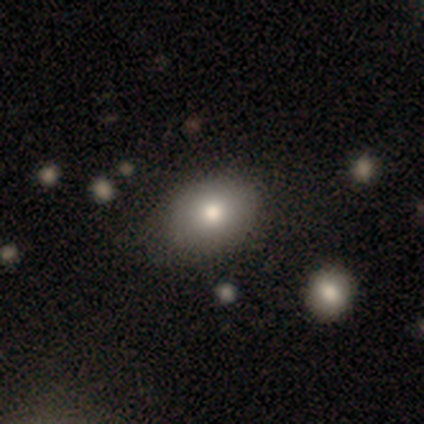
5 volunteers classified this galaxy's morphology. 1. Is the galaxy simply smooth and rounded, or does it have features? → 60% smooth, 40% featured or disk, 0% star or artifact.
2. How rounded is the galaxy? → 67% round, 33% in between, 0% cigar-shaped.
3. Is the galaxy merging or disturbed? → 80% none, 20% merger, 0% minor disturbance, 0% major disturbance.